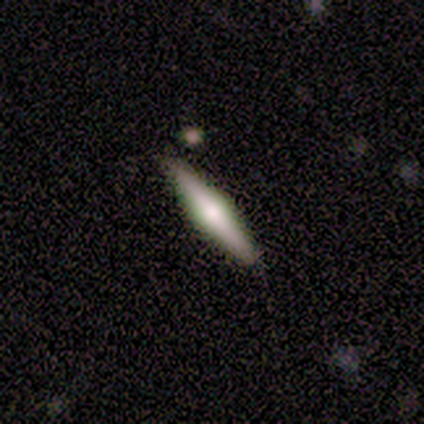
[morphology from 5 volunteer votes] A featured or disk galaxy (60%) viewed edge-on (67%) with a rounded central bulge (100%).

Vote fractions:
- Smooth or featured? featured or disk: 60% / smooth: 40% / star or artifact: 0%
- Edge-on disk? yes: 67% / no: 33%
- Edge-on bulge? rounded: 100% / boxy: 0% / none: 0%
- Merging? none: 100% / minor disturbance: 0% / major disturbance: 0% / merger: 0%